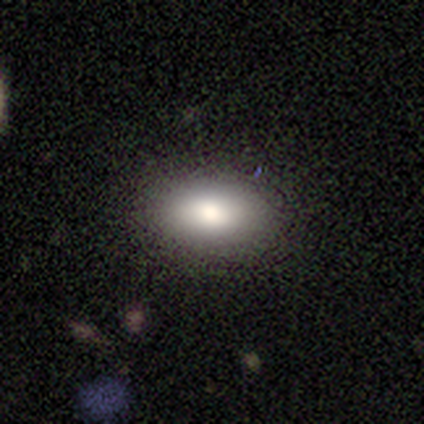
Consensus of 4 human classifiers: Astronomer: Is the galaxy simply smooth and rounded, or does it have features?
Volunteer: smooth — 100%.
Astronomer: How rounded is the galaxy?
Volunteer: in between — 75%.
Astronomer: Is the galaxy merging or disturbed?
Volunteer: none — 100%.